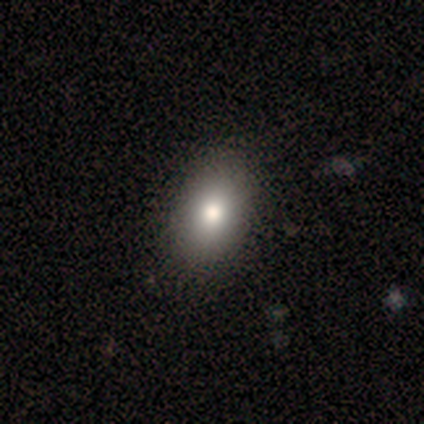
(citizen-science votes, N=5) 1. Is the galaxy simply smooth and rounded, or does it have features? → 80% smooth, 20% star or artifact, 0% featured or disk.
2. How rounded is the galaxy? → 100% in between, 0% round, 0% cigar-shaped.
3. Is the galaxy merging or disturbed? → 75% none, 25% minor disturbance, 0% major disturbance, 0% merger.